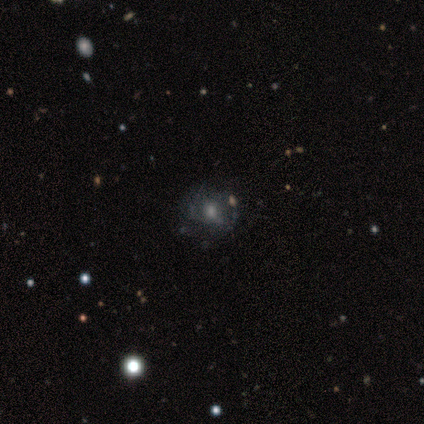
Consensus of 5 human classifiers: Smooth or featured? featured or disk (100%)
Edge-on disk? no (100%)
Bar? no (100%)
Spiral arms? yes (60%)
Spiral winding? loose (67%)
Spiral arm count? can't tell (100%)
Bulge size? moderate (60%)
Merging? none (100%)